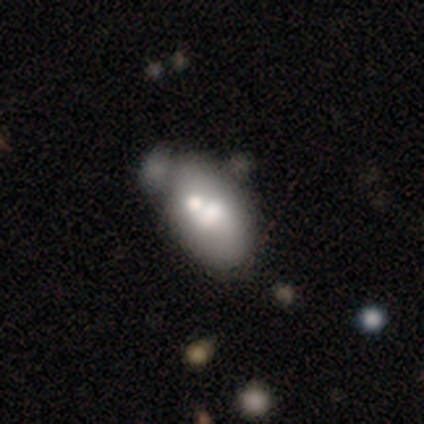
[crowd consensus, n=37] smooth_or_featured: featured or disk (p=0.54) [alt: smooth p=0.41]
disk_edge_on: no (p=1.00)
bar: no (p=0.75) [alt: strong p=0.15]
has_spiral_arms: no (p=0.95) [alt: yes p=0.05]
bulge_size: moderate (p=0.55) [alt: large p=0.35]
merging: merger (p=0.34) [alt: none p=0.31]